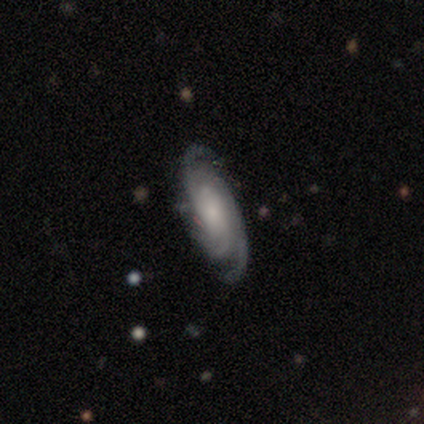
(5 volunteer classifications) Smooth or featured? 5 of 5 (100%) said featured or disk. Edge-on disk? 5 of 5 (100%) said no. Bar? 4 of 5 (80%) said no. Spiral arms? 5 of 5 (100%) said yes. Spiral winding? 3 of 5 (60%) said tight. Spiral arm count? 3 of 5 (60%) said 3. Bulge size? 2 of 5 (40%, tied with small) said moderate. Merging? 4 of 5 (80%) said none.